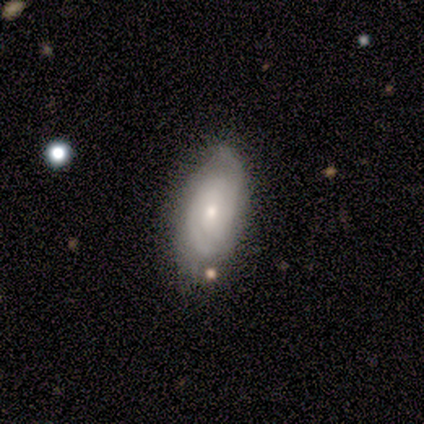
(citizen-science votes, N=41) A featured or disk galaxy (76%) with no bar (76%), 2 (48%) tight (44%) spiral arms (93%) and a small central bulge (59%). Merging: none (65%).